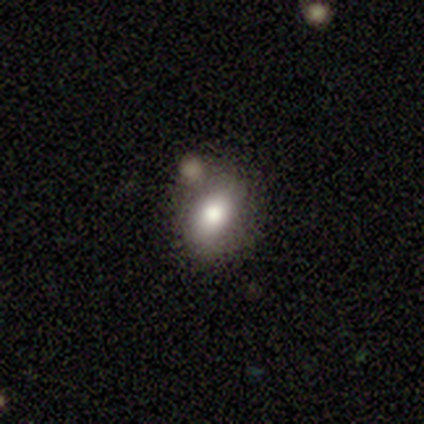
smooth-or-featured: smooth: 75% | star or artifact: 25% | featured or disk: 0%
  how-rounded: in between: 100% | round: 0% | cigar-shaped: 0%
  merging: none: 67% | major disturbance: 33% | minor disturbance: 0% | merger: 0%